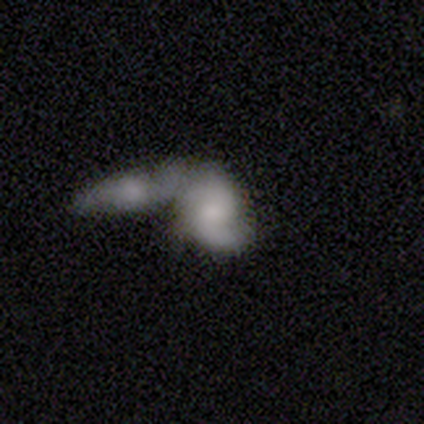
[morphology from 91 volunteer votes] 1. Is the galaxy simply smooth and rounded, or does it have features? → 52% featured or disk, 43% smooth, 5% star or artifact.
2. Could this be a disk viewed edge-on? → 91% no, 9% yes.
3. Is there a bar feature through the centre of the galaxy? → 72% no, 26% weak, 2% strong.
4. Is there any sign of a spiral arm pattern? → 77% yes, 23% no.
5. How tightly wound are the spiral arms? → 42% medium, 39% loose, 18% tight.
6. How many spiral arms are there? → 79% 2, 9% 1, 9% can't tell, 3% more than 4, 0% 3, 0% 4.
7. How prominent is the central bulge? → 42% small, 26% moderate, 23% none, 7% large, 2% dominant.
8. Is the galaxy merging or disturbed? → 77% merger, 10% none, 9% major disturbance, 3% minor disturbance.